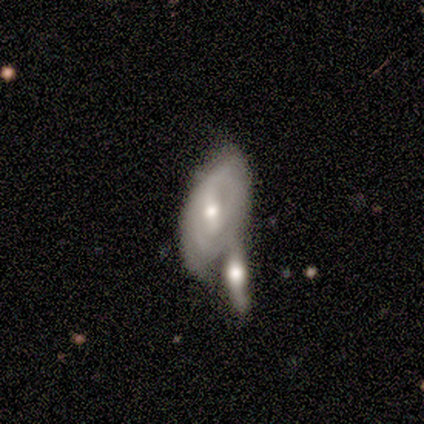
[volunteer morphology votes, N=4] Smooth or featured? 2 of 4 (50%, tied with featured or disk) said smooth. How rounded? 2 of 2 (100%) said in between. Merging? 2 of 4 (50%) said merger.